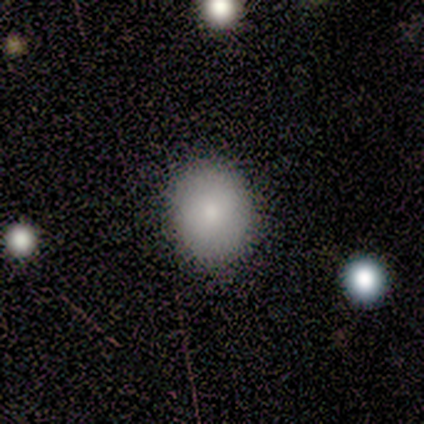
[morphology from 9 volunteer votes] type=smooth (78%); roundness=in between (57%); merging=none (88%).